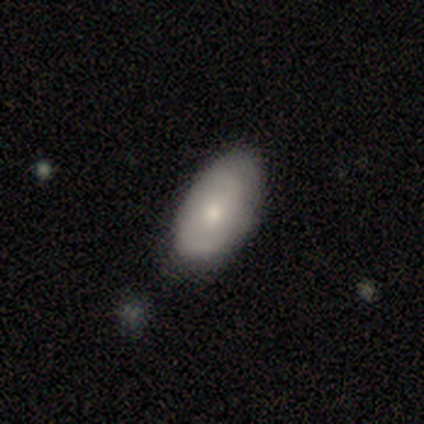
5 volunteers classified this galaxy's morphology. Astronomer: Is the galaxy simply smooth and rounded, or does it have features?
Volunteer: smooth — 60% (runner-up: featured or disk, 40%).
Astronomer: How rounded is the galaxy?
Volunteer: in between — 100%.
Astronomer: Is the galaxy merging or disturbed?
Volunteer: none — 60%.